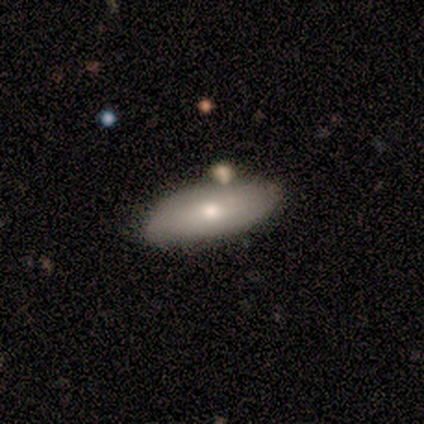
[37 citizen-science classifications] Morphology: type=smooth (84%); roundness=in between (84%); merging=none (43%).